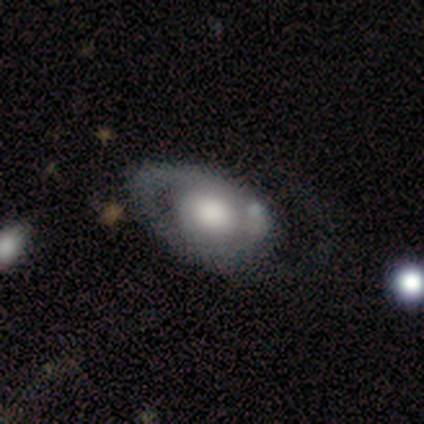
Volunteers were most divided on "spiral winding": loose: 50%, tight: 33%, medium: 17%. More confident: edge-on disk — no (100%); bar — no (80%); smooth or featured — featured or disk (77%); spiral arm count — 1 (67%); spiral arms — yes (60%); bulge size — large (60%); merging — none (54%).